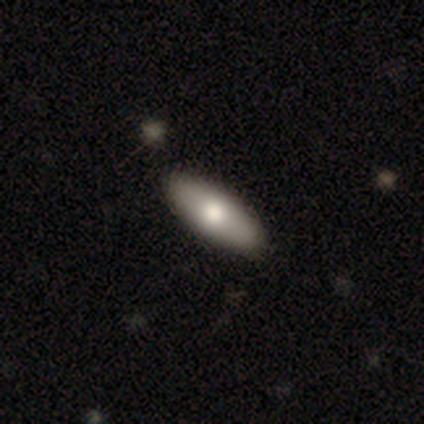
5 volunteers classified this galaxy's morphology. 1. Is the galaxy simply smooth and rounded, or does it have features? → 100% smooth, 0% featured or disk, 0% star or artifact.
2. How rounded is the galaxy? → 100% in between, 0% round, 0% cigar-shaped.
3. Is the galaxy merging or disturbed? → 100% none, 0% minor disturbance, 0% major disturbance, 0% merger.